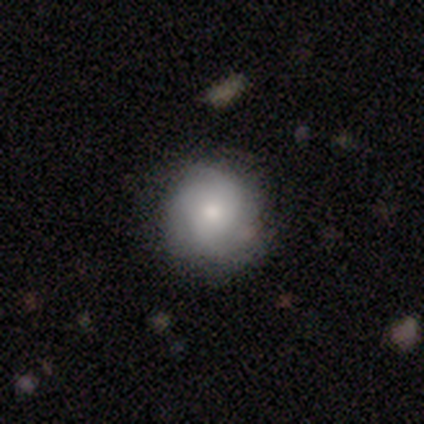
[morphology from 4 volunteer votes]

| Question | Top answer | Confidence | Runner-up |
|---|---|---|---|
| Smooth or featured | smooth | 50% | tied: featured or disk (50%) |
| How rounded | round | 100% | — |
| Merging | none | 75% | minor disturbance (25%) |